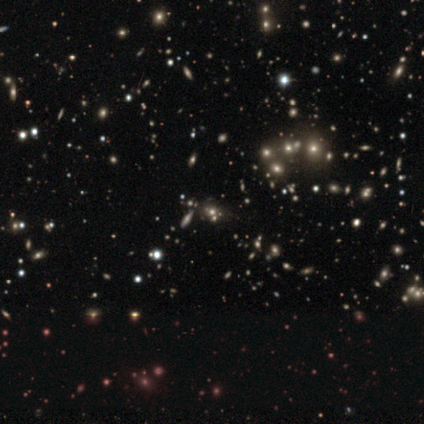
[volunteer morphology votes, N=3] A star or artifact, not a galaxy (67%).